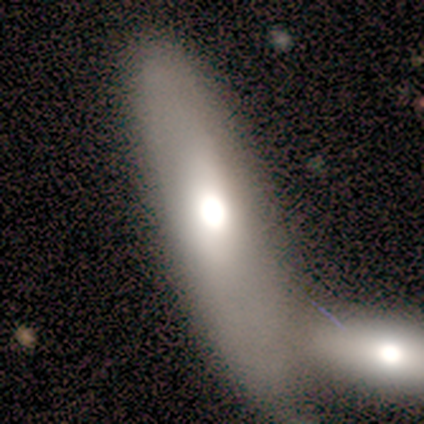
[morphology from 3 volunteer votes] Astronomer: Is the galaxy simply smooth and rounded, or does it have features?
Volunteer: featured or disk — 67%.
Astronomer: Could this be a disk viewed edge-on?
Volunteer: no — 100%.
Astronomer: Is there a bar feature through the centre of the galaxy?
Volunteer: strong — 50%, tied with no at 50%.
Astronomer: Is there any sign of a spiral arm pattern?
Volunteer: yes — 50%, tied with no at 50%.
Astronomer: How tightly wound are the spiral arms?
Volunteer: loose — 100%.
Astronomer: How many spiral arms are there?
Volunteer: can't tell — 100%.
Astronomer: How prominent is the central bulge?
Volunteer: large — 50%, tied with moderate at 50%.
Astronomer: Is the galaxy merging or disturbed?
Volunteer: merger — 67%.